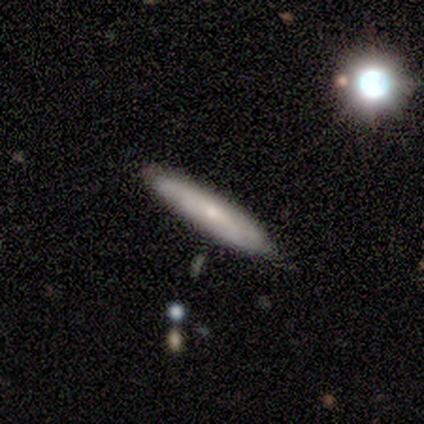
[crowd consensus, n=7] Morphology: type=featured or disk (43%); edge-on=yes (100%); edge-on bulge=none (67%); merging=none (100%).